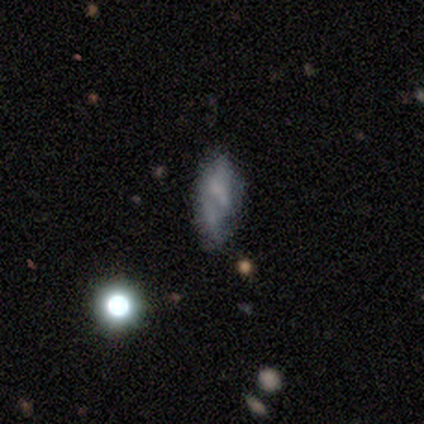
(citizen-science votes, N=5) A star or artifact, not a galaxy (80%).

Vote fractions:
- Smooth or featured? star or artifact: 80% / smooth: 20% / featured or disk: 0%